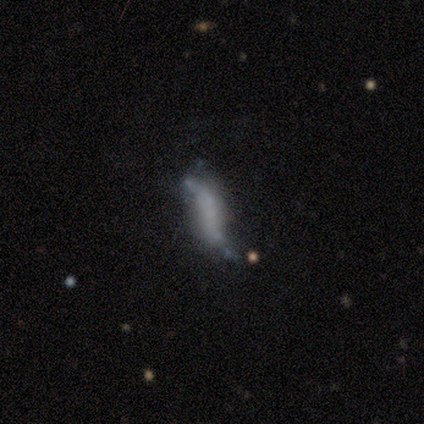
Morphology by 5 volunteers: This is clearly a featured or disk galaxy (100%). It is clearly not viewed edge-on (80%). Bar: possibly weak (50%, tied with no). Spiral arm pattern: possibly yes (50%, tied with no). Spiral arm count: clearly 2 (100%). Spiral winding: clearly loose (100%). Central bulge: clearly none (100%). Merging: marginally merger (40%).